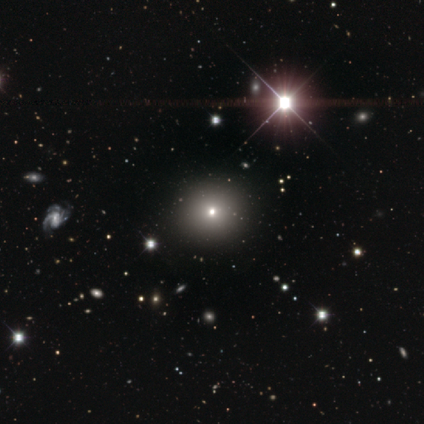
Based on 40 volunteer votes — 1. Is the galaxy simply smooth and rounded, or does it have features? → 65% smooth, 32% star or artifact, 2% featured or disk.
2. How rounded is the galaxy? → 92% round, 8% in between, 0% cigar-shaped.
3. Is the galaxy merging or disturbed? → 67% none, 0% minor disturbance, 0% major disturbance, 0% merger.